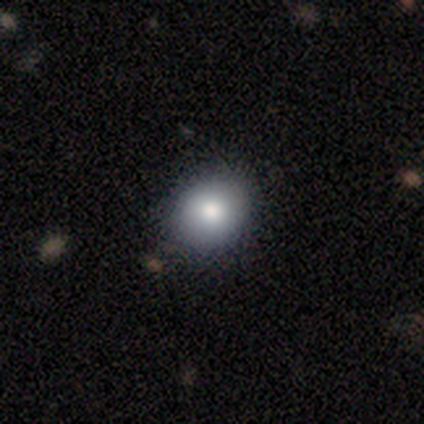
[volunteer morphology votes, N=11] This appears to be a smooth galaxy with no disk features (73%) that is round (100%). Merging: none (91%).